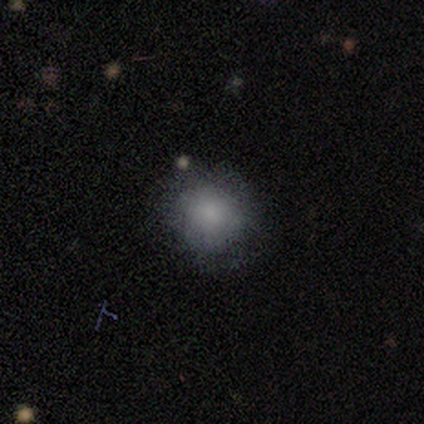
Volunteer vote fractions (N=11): Overall: smooth (82%). How rounded: round (89%). Merging: none (78%).